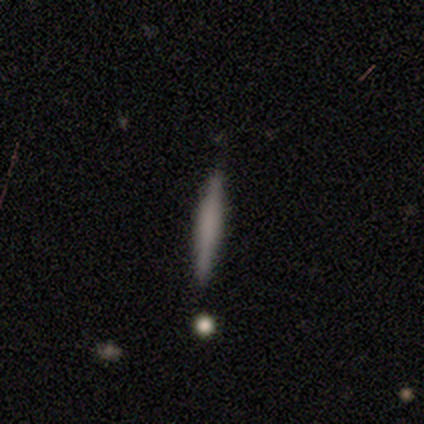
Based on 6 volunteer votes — Volunteers were most divided on "smooth or featured": smooth: 83%, star or artifact: 17%, featured or disk: 0%. More confident: how rounded — cigar-shaped (100%); merging — none (100%).